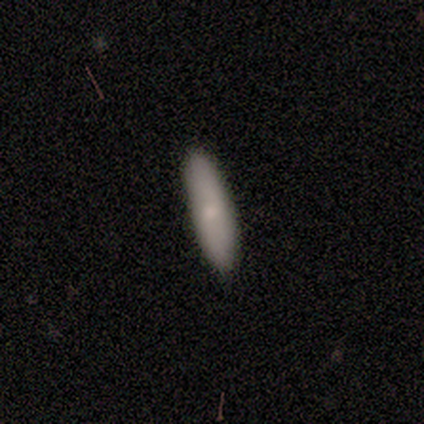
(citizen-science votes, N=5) smooth_or_featured: smooth (p=0.80) [alt: star or artifact p=0.20]
how_rounded: in between (p=0.50) [tied with: cigar-shaped p=0.50]
merging: none (p=1.00)